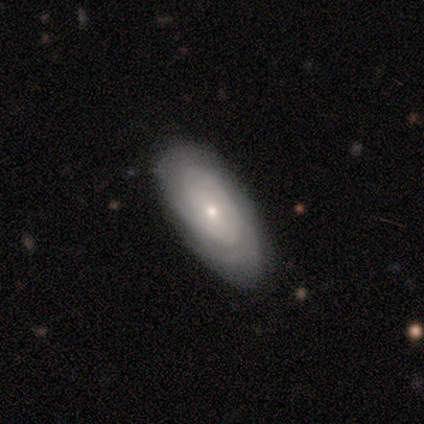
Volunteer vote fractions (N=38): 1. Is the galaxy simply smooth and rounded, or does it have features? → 61% featured or disk, 29% smooth, 11% star or artifact.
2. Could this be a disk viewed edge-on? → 100% no, 0% yes.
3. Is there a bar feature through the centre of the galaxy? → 87% no, 9% weak, 4% strong.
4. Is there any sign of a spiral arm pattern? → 91% yes, 9% no.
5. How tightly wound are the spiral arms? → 71% tight, 19% medium, 10% loose.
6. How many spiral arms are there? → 52% can't tell, 19% 2, 14% more than 4, 10% 4, 5% 1, 0% 3.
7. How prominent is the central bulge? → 78% small, 22% moderate, 0% dominant, 0% large, 0% none.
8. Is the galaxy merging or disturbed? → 79% none, 15% minor disturbance, 3% major disturbance, 3% merger.